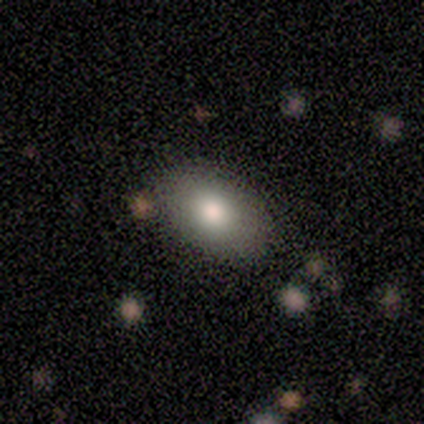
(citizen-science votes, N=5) smooth_or_featured: smooth (p=0.80) [alt: featured or disk p=0.20]
how_rounded: round (p=0.50) [tied with: in between p=0.50]
merging: none (p=0.40) [tied with: minor disturbance p=0.40]